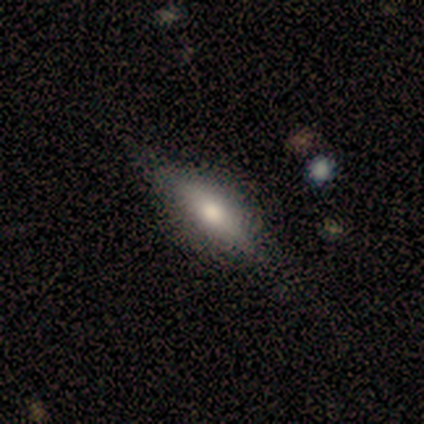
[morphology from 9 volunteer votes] A featured or disk galaxy (56%) viewed edge-on (80%) with a rounded central bulge (75%). Merging: none (89%).